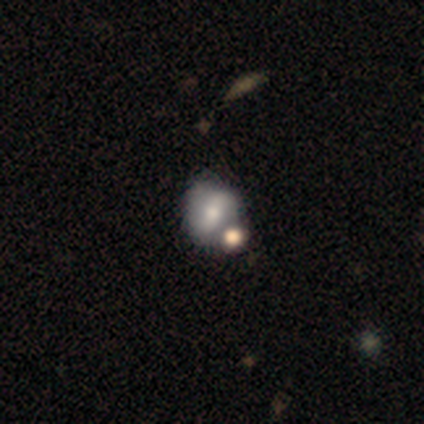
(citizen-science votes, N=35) Smooth or featured? featured or disk (66%)
Edge-on disk? no (100%)
Bar? weak (43%)
Spiral arms? yes (74%)
Spiral winding? loose (65%)
Spiral arm count? 2 (88%)
Bulge size? moderate (52%)
Merging? none (48%)